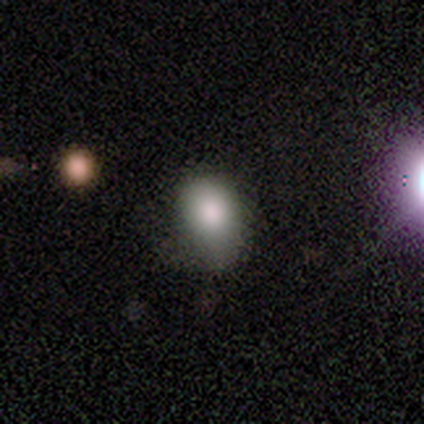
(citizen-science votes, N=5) A smooth galaxy with no disk features (80%) that is in between round and cigar-shaped (100%).

Vote fractions:
- Smooth or featured? smooth: 80% / featured or disk: 20% / star or artifact: 0%
- How rounded? in between: 100% / round: 0% / cigar-shaped: 0%
- Merging? minor disturbance: 60% / none: 20% / major disturbance: 20% / merger: 0%